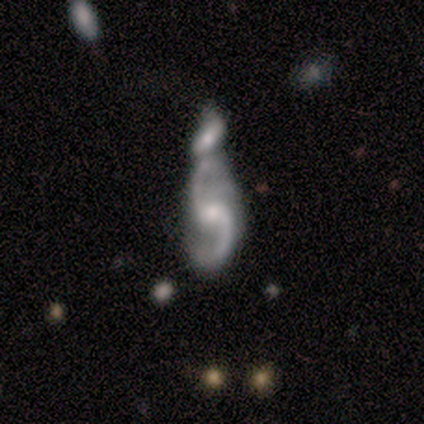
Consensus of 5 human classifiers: Smooth or featured: featured or disk — 100%
Edge-on disk: no — 100%
Bar: weak — 100%
Spiral arms: yes — 100%
Spiral winding: loose — 80% (medium — 20%)
Spiral arm count: 2 — 100%
Bulge size: small — 80% (moderate — 20%)
Merging: merger — 80% (none — 20%)